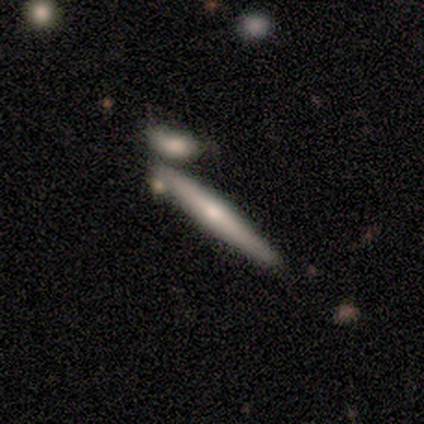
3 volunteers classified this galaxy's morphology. Q: Smooth or featured?
A: smooth (67%); runner-up: featured or disk (33%)
Q: How rounded?
A: cigar-shaped (100%)
Q: Merging?
A: none (100%)